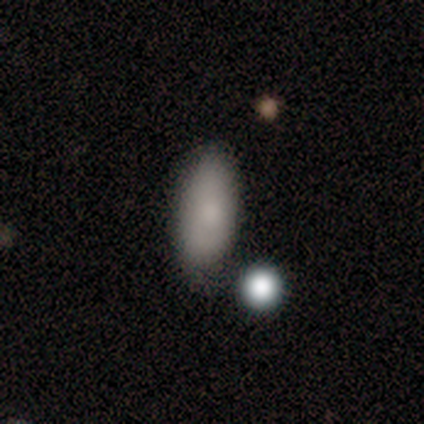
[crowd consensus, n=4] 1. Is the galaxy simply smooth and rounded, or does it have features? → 100% smooth, 0% featured or disk, 0% star or artifact.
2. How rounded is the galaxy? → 75% in between, 25% cigar-shaped, 0% round.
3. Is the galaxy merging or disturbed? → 50% none, 25% minor disturbance, 25% merger, 0% major disturbance.